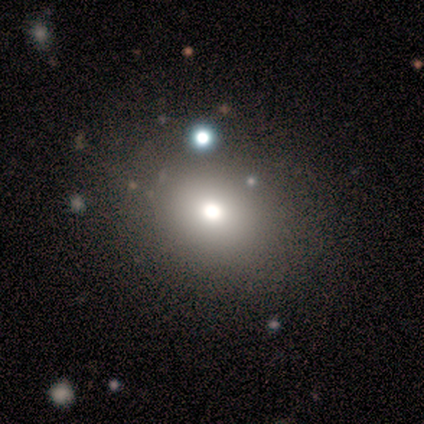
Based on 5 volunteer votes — smooth-or-featured: smooth: 100% | featured or disk: 0% | star or artifact: 0%
  how-rounded: in between: 60% | round: 40% | cigar-shaped: 0%
  merging: none: 80% | major disturbance: 20% | minor disturbance: 0% | merger: 0%